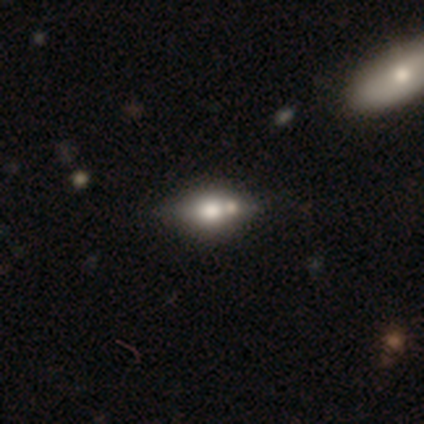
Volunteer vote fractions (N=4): smooth_or_featured: featured or disk (p=0.50) [alt: smooth p=0.25]
disk_edge_on: yes (p=0.50) [tied with: no p=0.50]
edge_on_bulge: rounded (p=1.00)
merging: none (p=1.00)